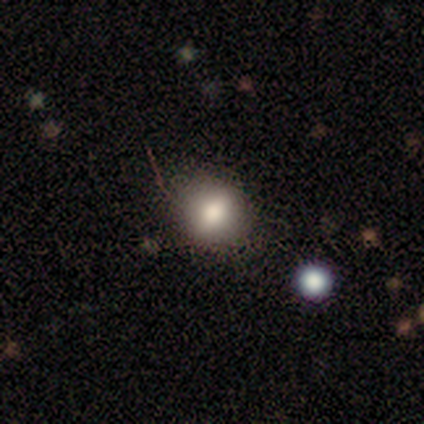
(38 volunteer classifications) Volunteers were most divided on "smooth or featured": smooth: 74%, star or artifact: 18%, featured or disk: 8%. More confident: how rounded — round (82%); merging — none (65%).